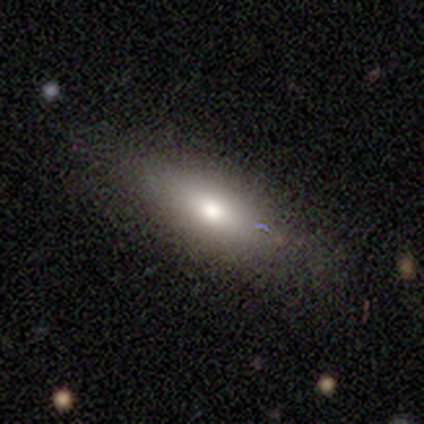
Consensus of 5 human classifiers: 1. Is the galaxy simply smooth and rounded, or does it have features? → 100% smooth, 0% featured or disk, 0% star or artifact.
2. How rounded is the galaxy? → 80% in between, 20% cigar-shaped, 0% round.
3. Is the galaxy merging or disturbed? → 100% none, 0% minor disturbance, 0% major disturbance, 0% merger.